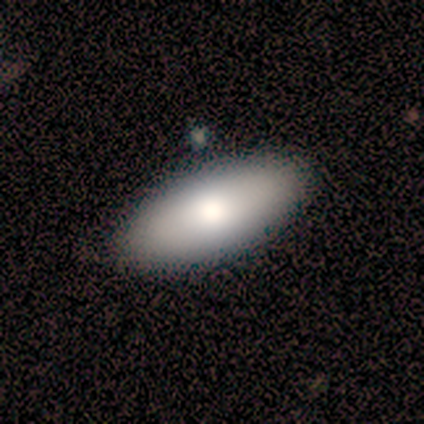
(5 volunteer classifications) Q: Smooth or featured?
A: smooth (80%); runner-up: featured or disk (20%)
Q: How rounded?
A: in between (50%); tied with: cigar-shaped (50%)
Q: Merging?
A: none (60%); runner-up: minor disturbance (40%)